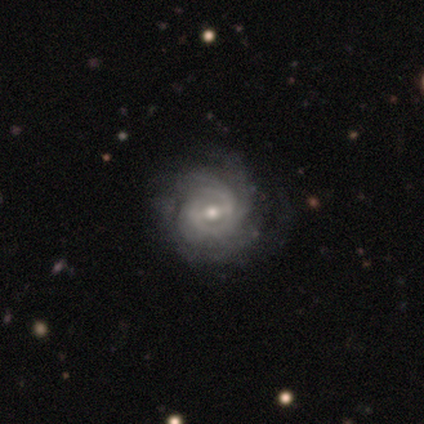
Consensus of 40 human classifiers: Volunteers were most divided on "bulge size": moderate: 46%, small: 38%, large: 8%, dominant: 5%, none: 3%. Remaining: edge-on disk — no (100%); spiral arms — yes (97%); smooth or featured — featured or disk (92%); spiral winding — tight (58%); bar — weak (54%); merging — none (50%); spiral arm count — can't tell (47%).